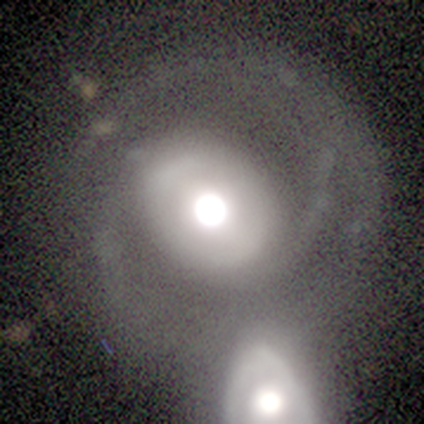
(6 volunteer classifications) A smooth galaxy with no disk features (50%, tied with featured or disk) that is in between round and cigar-shaped (67%). Merging: merger (83%).